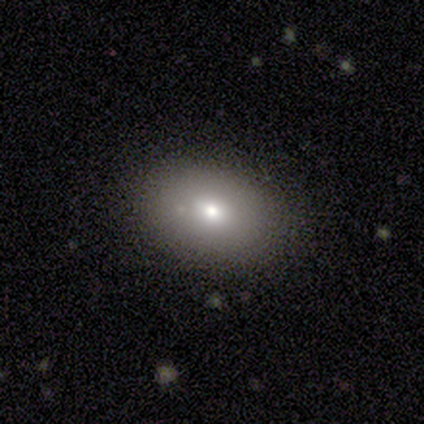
This is likely a smooth galaxy (60%). How rounded: likely in between (67%). Merging: possibly none (50%, tied with minor disturbance).